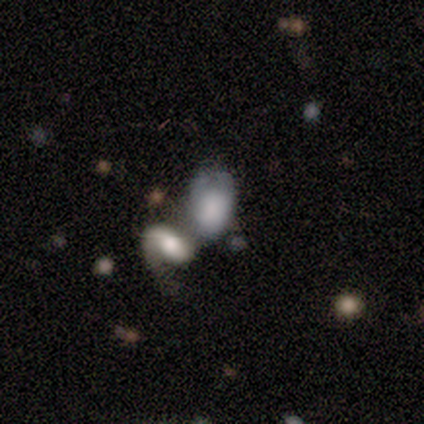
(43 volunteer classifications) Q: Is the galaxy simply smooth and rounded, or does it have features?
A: smooth — 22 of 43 (51%).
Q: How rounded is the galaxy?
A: in between — 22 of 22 (100%).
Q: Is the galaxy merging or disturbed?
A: merger — 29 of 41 (71%).